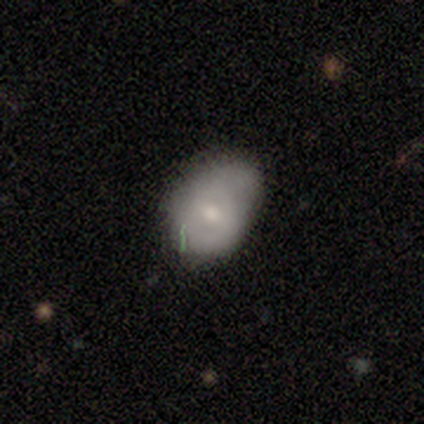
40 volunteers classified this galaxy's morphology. This is likely a smooth galaxy (68%). How rounded: likely in between (78%). Merging: possibly none (50%).